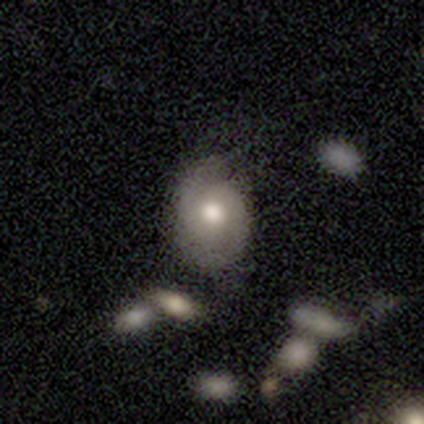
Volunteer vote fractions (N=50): Smooth or featured?
  - featured or disk: 54% *
  - smooth: 42%
  - star or artifact: 4%
Edge-on disk?
  - no: 96% *
  - yes: 4%
Bar?
  - no: 85% *
  - weak: 15%
  - strong: 0%
Spiral arms?
  - yes: 77% *
  - no: 23%
Spiral winding?
  - tight: 50% * (tied)
  - medium: 50% * (tied)
  - loose: 0%
Spiral arm count?
  - 2: 85% *
  - can't tell: 10%
  - 3: 5%
  - 1: 0%
  - 4: 0%
  - more than 4: 0%
Bulge size?
  - moderate: 69% *
  - large: 23%
  - dominant: 8%
  - small: 0%
  - none: 0%
Merging?
  - none: 52% *
  - minor disturbance: 40%
  - major disturbance: 8%
  - merger: 0%